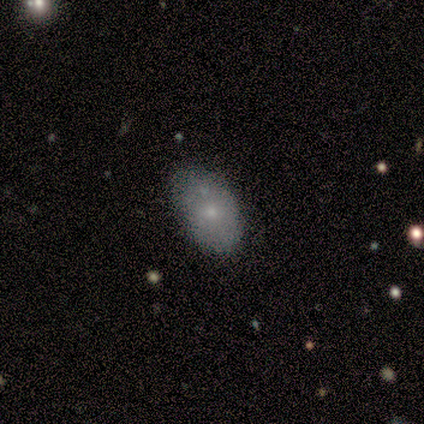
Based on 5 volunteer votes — Smooth or featured? smooth (80%)
How rounded? in between (100%)
Merging? none (100%)